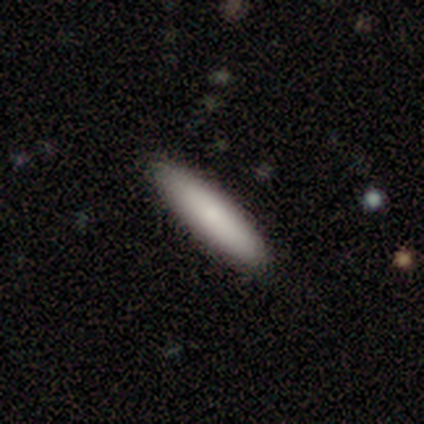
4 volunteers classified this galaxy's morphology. This appears to be a smooth galaxy with no disk features (100%) that is in between round and cigar-shaped (50%, tied with cigar-shaped). Merging: none (100%).